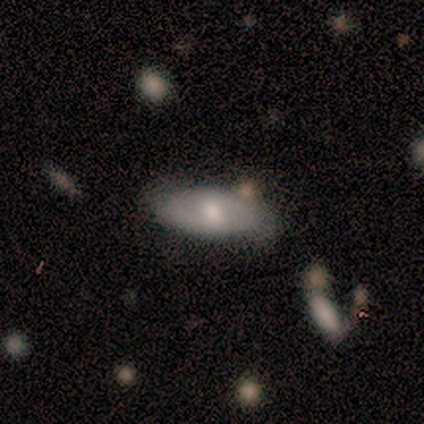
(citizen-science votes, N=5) smooth_or_featured: featured or disk (p=0.60) [alt: smooth p=0.40]
disk_edge_on: no (p=1.00)
bar: no (p=1.00)
has_spiral_arms: yes (p=0.67) [alt: no p=0.33]
spiral_winding: tight (p=0.50) [tied with: loose p=0.50]
spiral_arm_count: 2 (p=1.00)
bulge_size: moderate (p=0.67) [alt: none p=0.33]
merging: none (p=1.00)